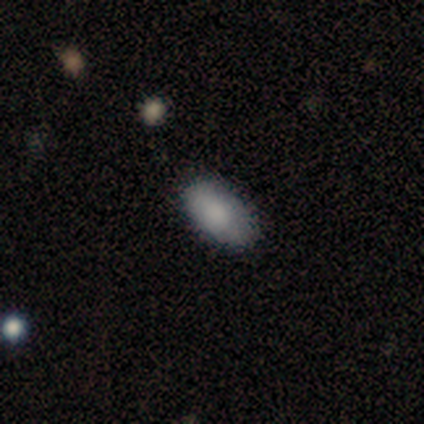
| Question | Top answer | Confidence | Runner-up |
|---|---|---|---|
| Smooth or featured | smooth | 64% | featured or disk (18%) |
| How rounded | in between | 100% | — |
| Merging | none | 89% | minor disturbance (11%) |